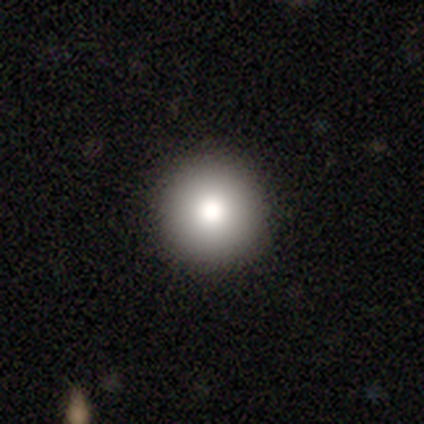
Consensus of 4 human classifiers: Smooth or featured: smooth — 50% (tied with star or artifact — 50%)
How rounded: round — 100%
Merging: none — 100%